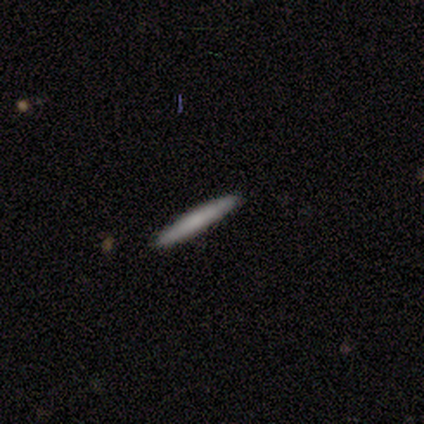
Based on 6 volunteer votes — smooth_or_featured: smooth (p=0.83) [alt: star or artifact p=0.17]
how_rounded: cigar-shaped (p=1.00)
merging: none (p=1.00)